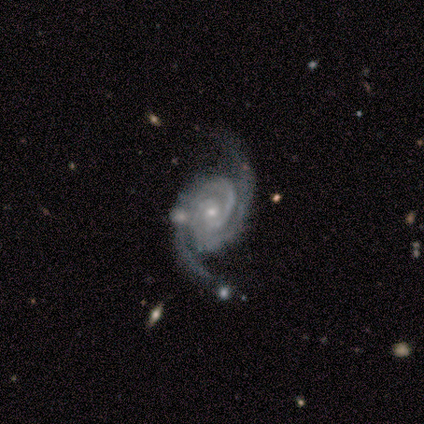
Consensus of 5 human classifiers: Q: Smooth or featured?
A: featured or disk (100%)
Q: Edge-on disk?
A: no (100%)
Q: Bar?
A: no (100%)
Q: Spiral arms?
A: yes (100%)
Q: Spiral winding?
A: tight (100%)
Q: Spiral arm count?
A: 2 (100%)
Q: Bulge size?
A: small (100%)
Q: Merging?
A: none (100%)